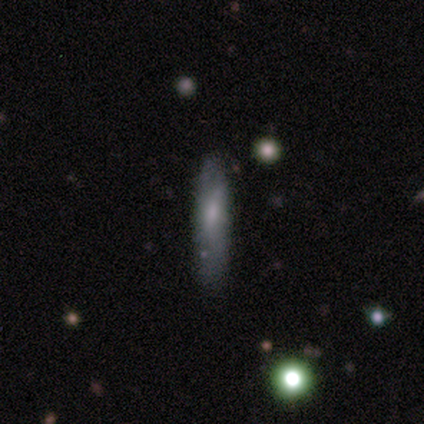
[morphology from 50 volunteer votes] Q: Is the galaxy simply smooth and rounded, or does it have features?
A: smooth — 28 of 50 (56%).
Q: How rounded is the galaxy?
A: cigar-shaped — 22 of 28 (79%).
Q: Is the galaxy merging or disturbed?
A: none — 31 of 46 (67%).